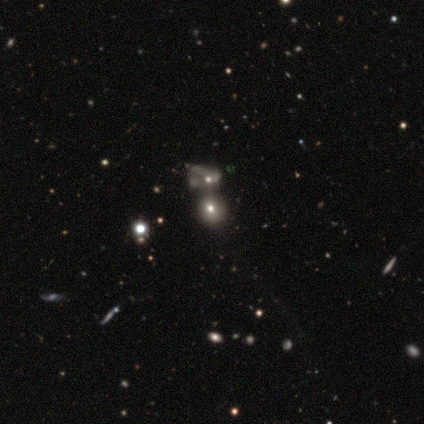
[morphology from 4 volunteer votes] This is likely a smooth galaxy (75%). How rounded: likely round (67%). Merging: likely none (67%).